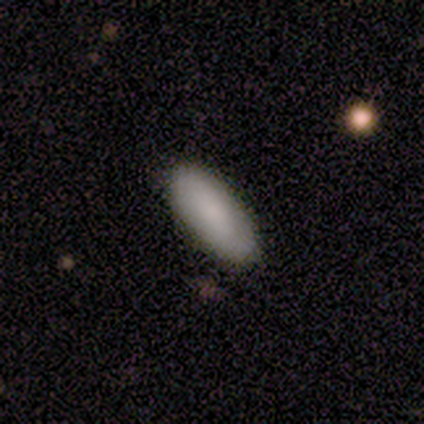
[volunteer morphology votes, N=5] type=smooth (80%); roundness=in between (100%); merging=none (100%).